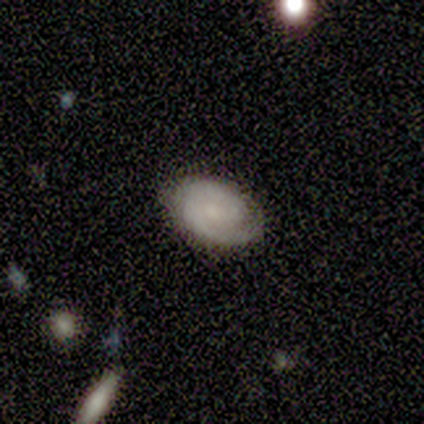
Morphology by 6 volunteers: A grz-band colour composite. It shows a featured or disk galaxy (83%) with no bar (80%), 2 (60%) tight (60%) spiral arms (100%) and a moderate central bulge (40%, tied with small). Merging: none (100%).